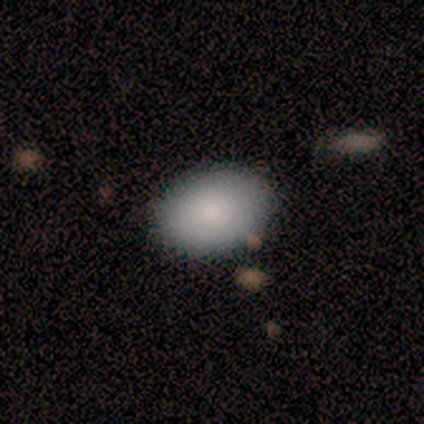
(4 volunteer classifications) Morphology: type=smooth (100%); roundness=in between (100%); merging=none (75%).